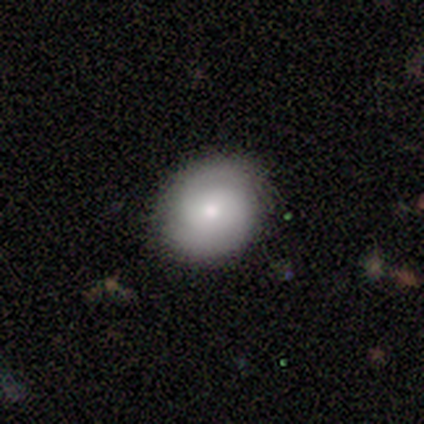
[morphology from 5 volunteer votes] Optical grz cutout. It shows a featured or disk galaxy (80%) with no bar (75%), 2 (67%) tight (100%) spiral arms (75%) and a moderate central bulge (50%, tied with small). Merging: none (100%).